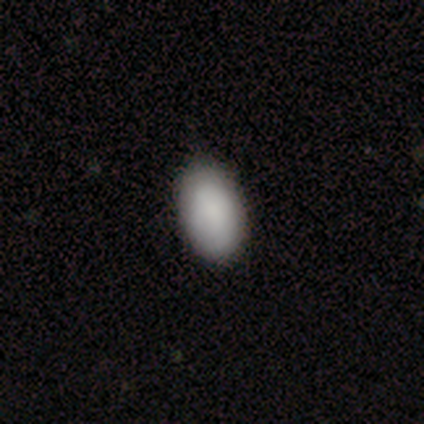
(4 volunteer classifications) smooth_or_featured: smooth (p=1.00)
how_rounded: in between (p=1.00)
merging: none (p=1.00)